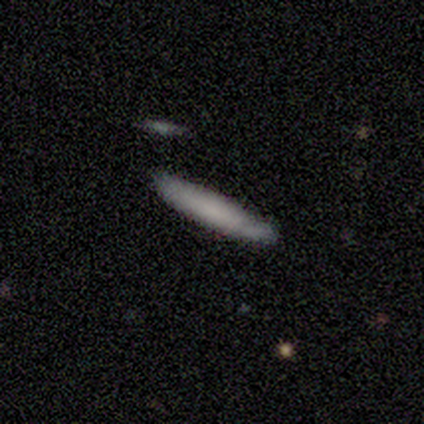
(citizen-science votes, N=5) Smooth or featured: smooth — 100%
How rounded: cigar-shaped — 100%
Merging: none — 100%